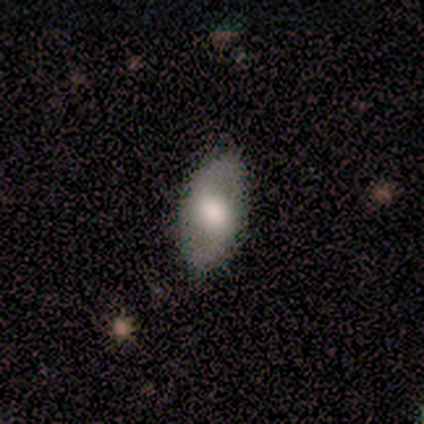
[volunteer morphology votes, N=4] Overall: smooth (75%). How rounded: in between (100%). Merging: none (75%).